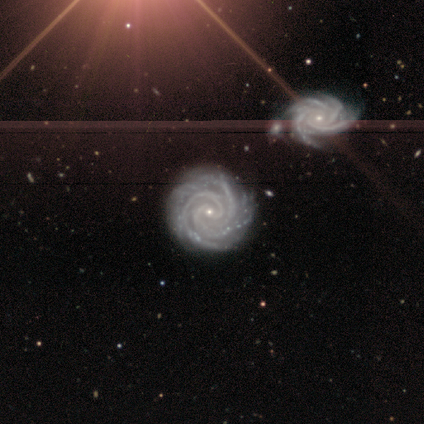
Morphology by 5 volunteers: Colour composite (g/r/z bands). It shows a featured or disk galaxy (80%) with no bar (75%), 3 (50%) tight (100%) spiral arms (100%) and a small central bulge (100%). Merging: none (75%).